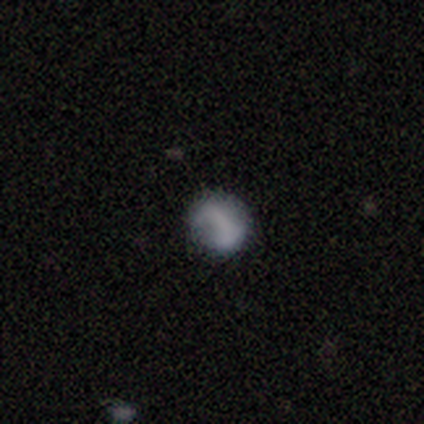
This appears to be a smooth galaxy with no disk features (60%) that is round (67%). Merging: none (100%).